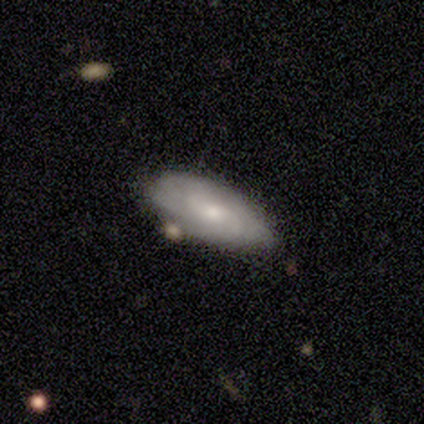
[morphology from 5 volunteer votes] Smooth or featured?
  - smooth: 60% *
  - featured or disk: 40%
  - star or artifact: 0%
How rounded?
  - in between: 67% *
  - cigar-shaped: 33%
  - round: 0%
Merging?
  - none: 100% *
  - minor disturbance: 0%
  - major disturbance: 0%
  - merger: 0%